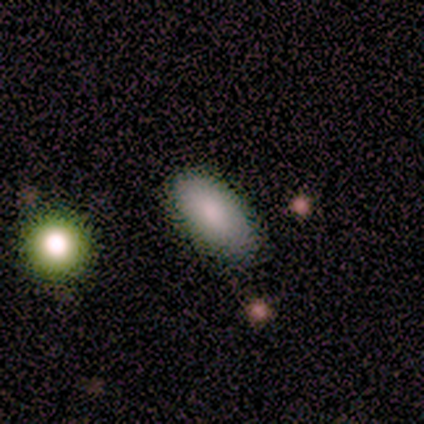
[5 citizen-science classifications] This appears to be a smooth galaxy with no disk features (100%) that is in between round and cigar-shaped (80%). Merging: none (80%).